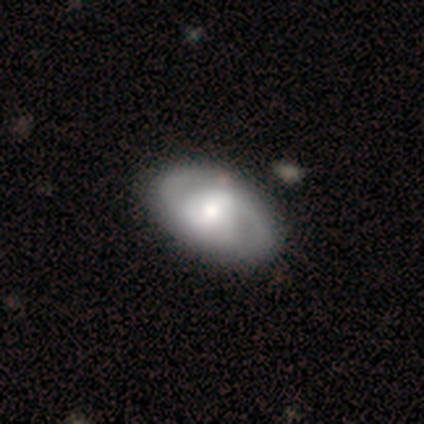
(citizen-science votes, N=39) This appears to be a featured or disk galaxy (64%) with no bar (48%), 2 (86%) medium (52%) spiral arms (84%) and a moderate central bulge (60%). Merging: none (64%).